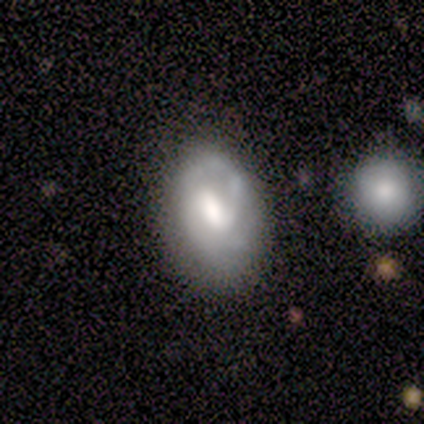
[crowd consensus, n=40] Morphology: type=featured or disk (62%); edge-on=no (100%); bar=weak (48%); spiral arms=yes (76%); winding=tight (53%); arm count=2 (68%); bulge=moderate (52%); merging=none (51%).